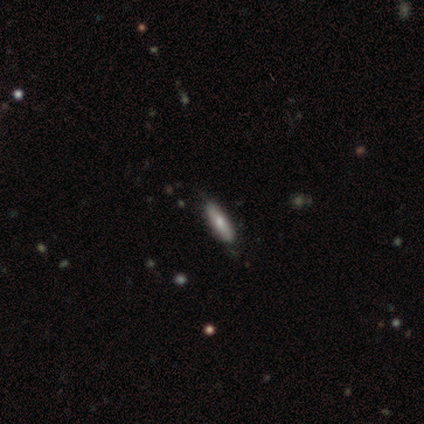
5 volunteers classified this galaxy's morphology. Smooth or featured? featured or disk (80%)
Edge-on disk? yes (75%)
Edge-on bulge? boxy (33%, tied with none and rounded)
Merging? none (80%)